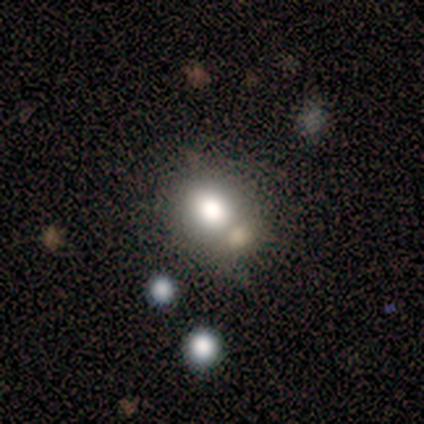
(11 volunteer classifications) smooth_or_featured: smooth (p=0.73) [alt: featured or disk p=0.18]
how_rounded: in between (p=0.62) [alt: round p=0.38]
merging: none (p=0.40) [tied with: merger p=0.40]